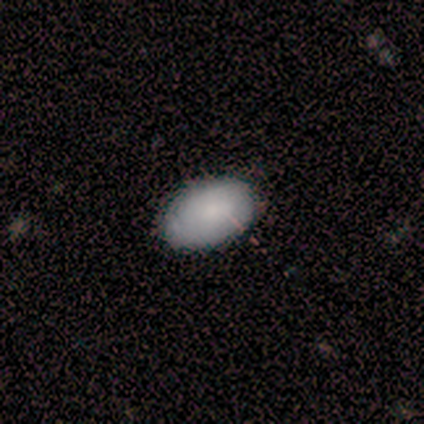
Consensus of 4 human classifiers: smooth-or-featured: smooth: 75% | featured or disk: 25% | star or artifact: 0%
  how-rounded: in between: 67% | round: 33% | cigar-shaped: 0%
  merging: none: 75% | minor disturbance: 25% | major disturbance: 0% | merger: 0%